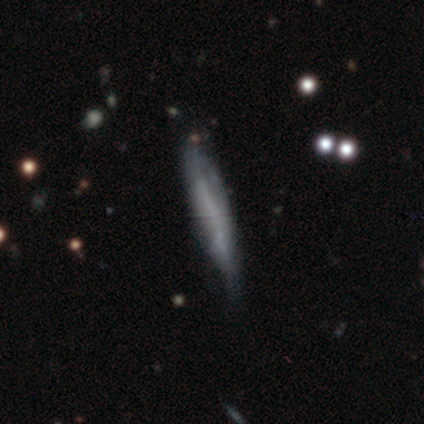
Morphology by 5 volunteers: Smooth or featured: featured or disk — 60% (smooth — 40%)
Edge-on disk: yes — 100%
Edge-on bulge: none — 67% (rounded — 33%)
Merging: none — 60% (minor disturbance — 40%)